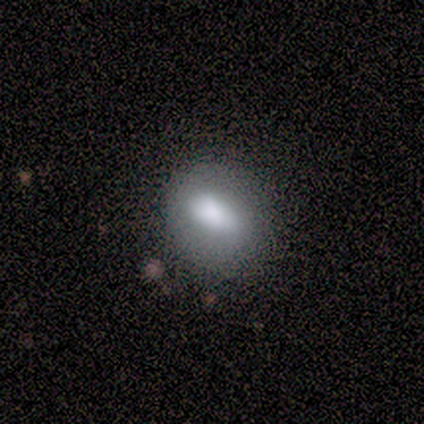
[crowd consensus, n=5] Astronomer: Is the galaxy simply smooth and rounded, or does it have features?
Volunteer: smooth — 60% (runner-up: featured or disk, 40%).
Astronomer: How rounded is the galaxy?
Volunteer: in between — 67%.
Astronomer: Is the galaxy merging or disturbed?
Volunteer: none — 60% (runner-up: minor disturbance, 40%).